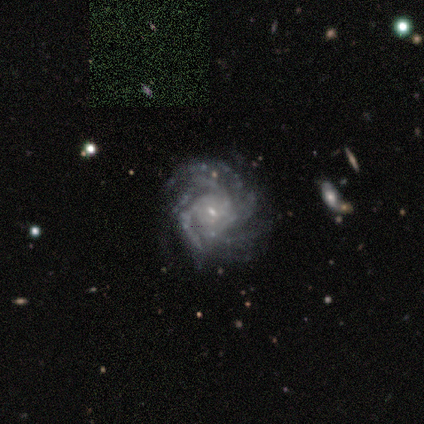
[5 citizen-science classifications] A featured or disk galaxy (100%) with no bar (60%), more than 4 (60%) medium (60%) spiral arms (100%) and a small central bulge (80%). Merging: none (80%).